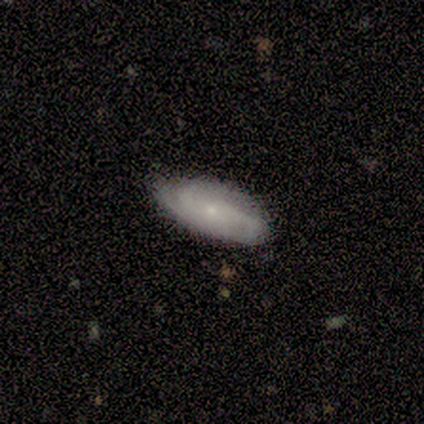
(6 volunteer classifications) Q: Smooth or featured?
A: featured or disk (83%); runner-up: smooth (17%)
Q: Edge-on disk?
A: no (100%)
Q: Bar?
A: no (80%); runner-up: strong (20%)
Q: Spiral arms?
A: yes (100%)
Q: Spiral winding?
A: tight (40%); tied with: loose (40%)
Q: Spiral arm count?
A: 2 (40%); tied with: 3 (40%)
Q: Bulge size?
A: small (100%)
Q: Merging?
A: none (67%); runner-up: minor disturbance (33%)